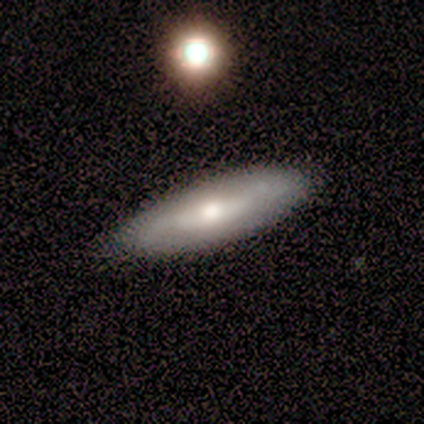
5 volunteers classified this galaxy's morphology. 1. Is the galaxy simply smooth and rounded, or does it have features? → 80% smooth, 20% featured or disk, 0% star or artifact.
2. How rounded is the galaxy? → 75% cigar-shaped, 25% in between, 0% round.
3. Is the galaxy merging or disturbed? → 80% none, 20% minor disturbance, 0% major disturbance, 0% merger.